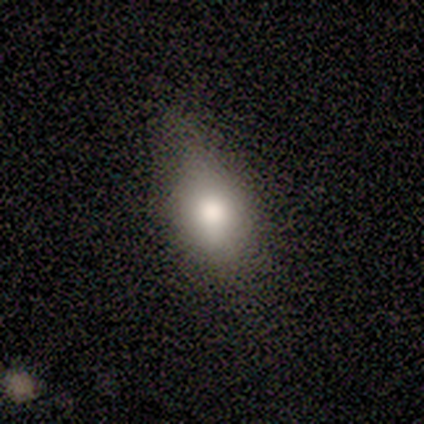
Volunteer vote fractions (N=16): Q: Smooth or featured?
A: smooth (81%); runner-up: featured or disk (19%)
Q: How rounded?
A: in between (77%); runner-up: round (23%)
Q: Merging?
A: none (50%); runner-up: minor disturbance (31%)